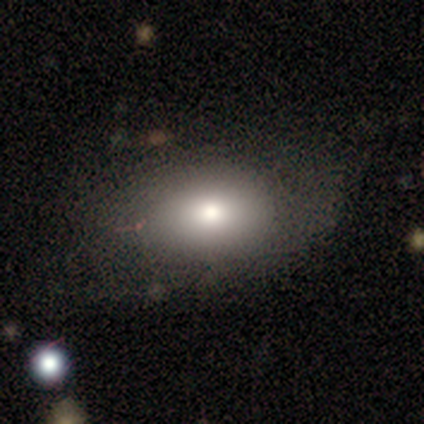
smooth 78%, featured or disk 18%, star or artifact 5%. Down the decision tree: how rounded — in between (87%); merging — none (55%).